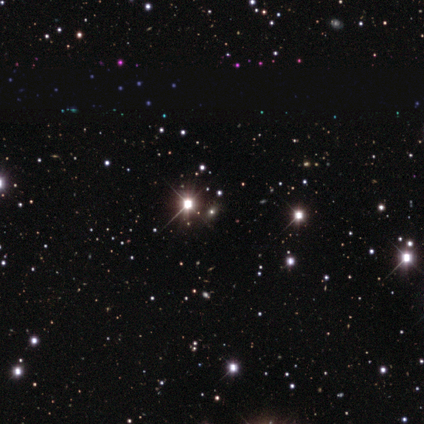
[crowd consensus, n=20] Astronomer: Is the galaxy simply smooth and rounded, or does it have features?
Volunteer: star or artifact — 75%.